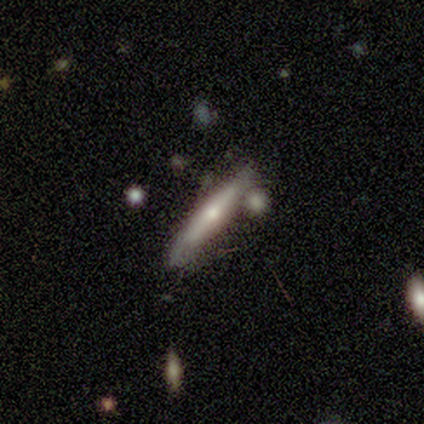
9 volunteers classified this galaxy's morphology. featured or disk 67%, smooth 33%, star or artifact 0%. Down the decision tree: edge-on disk — yes (100%); edge-on bulge — rounded (67%); merging — none (56%).